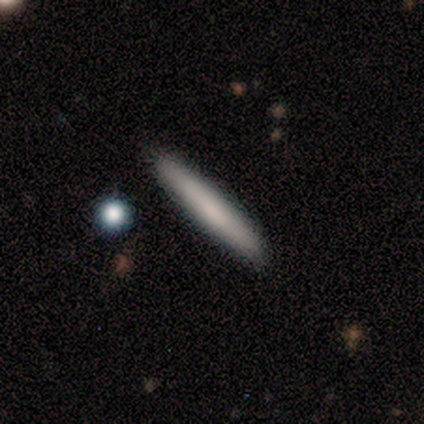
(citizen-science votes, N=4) This appears to be a smooth galaxy with no disk features (75%) that is cigar-shaped (100%). Merging: none (100%).